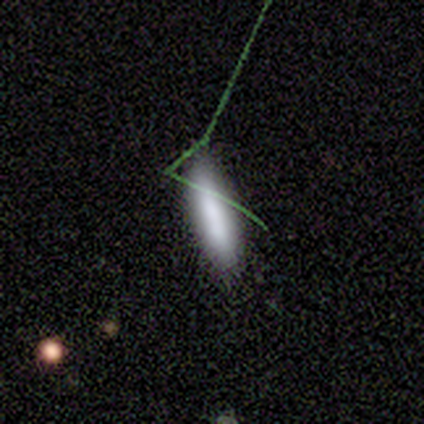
A smooth galaxy with no disk features (77%) that is cigar-shaped (63%).

Vote fractions:
- Smooth or featured? smooth: 77% / featured or disk: 15% / star or artifact: 8%
- How rounded? cigar-shaped: 63% / in between: 37% / round: 0%
- Merging? none: 86% / minor disturbance: 8% / major disturbance: 6% / merger: 0%